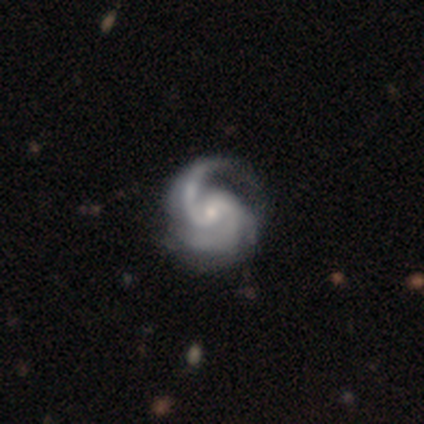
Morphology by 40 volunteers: type=featured or disk (98%); edge-on=no (100%); bar=no (46%); spiral arms=yes (100%); winding=medium (59%); arm count=2 (67%); bulge=small (51%); merging=none (48%).